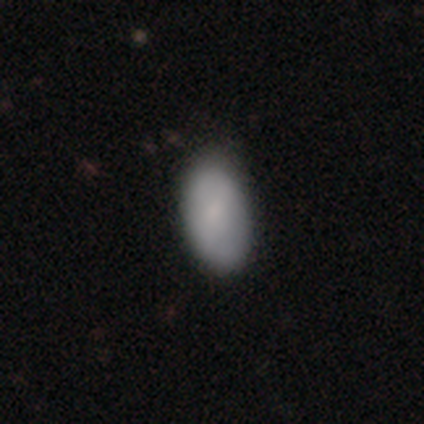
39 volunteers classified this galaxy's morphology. Overall: smooth (82%). How rounded: in between (97%). Merging: none (65%).